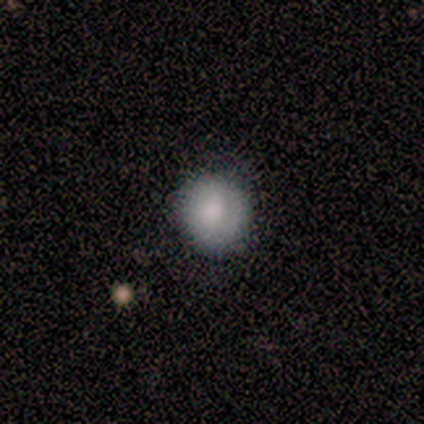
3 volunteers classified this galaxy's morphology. Smooth or featured? smooth (100%)
How rounded? round (100%)
Merging? none (67%)